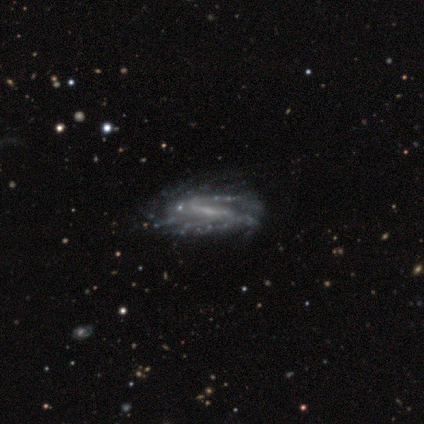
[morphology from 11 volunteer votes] This appears to be a featured or disk galaxy (91%) with a strong bar (56%), 2 (71%) medium (57%) spiral arms (78%) and a small central bulge (56%). Merging: none (70%).